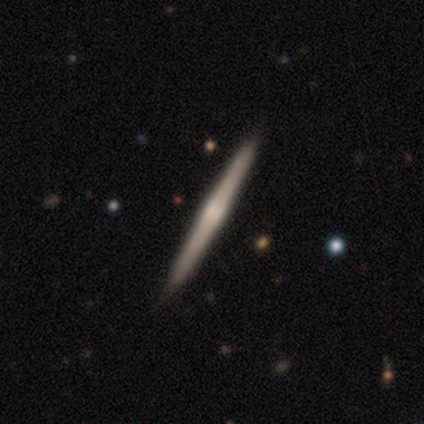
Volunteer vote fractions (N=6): Smooth or featured? 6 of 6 (100%) said featured or disk. Edge-on disk? 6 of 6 (100%) said yes. Edge-on bulge? 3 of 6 (50%) said rounded. Merging? 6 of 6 (100%) said none.